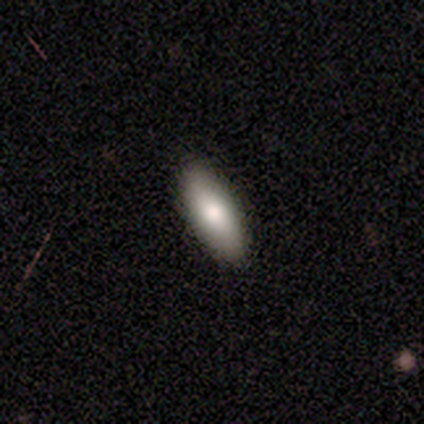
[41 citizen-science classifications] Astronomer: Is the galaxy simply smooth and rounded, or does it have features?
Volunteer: smooth — 76%.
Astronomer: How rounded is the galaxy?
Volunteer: in between — 71%.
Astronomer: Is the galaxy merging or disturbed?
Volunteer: none — 62%.